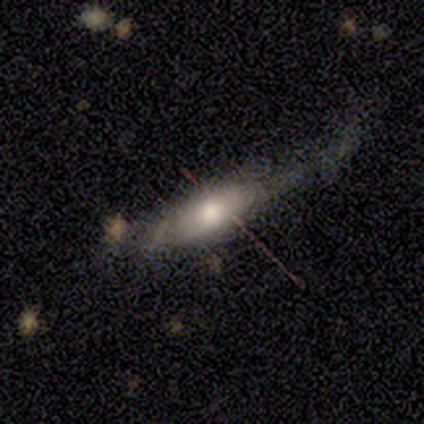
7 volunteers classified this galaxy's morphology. Smooth or featured: smooth — 57% (featured or disk — 43%)
How rounded: in between — 50% (round — 25%)
Merging: major disturbance — 57% (minor disturbance — 29%)